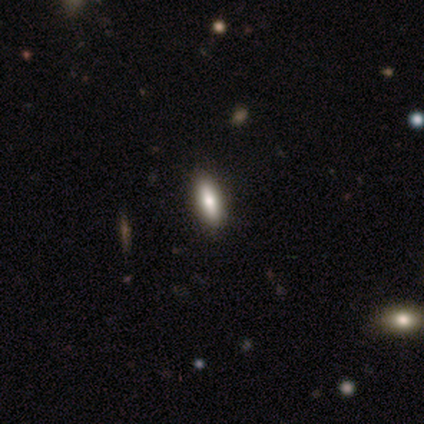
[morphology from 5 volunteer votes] type=smooth (60%); roundness=cigar-shaped (100%); merging=none (67%).